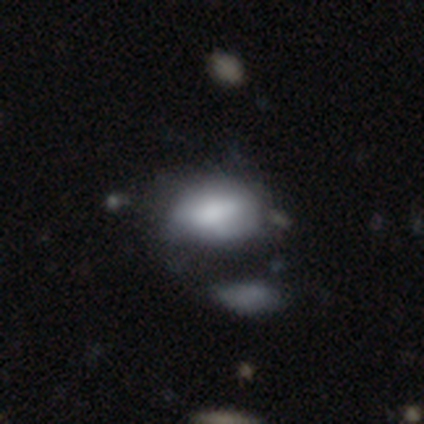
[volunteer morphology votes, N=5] Overall: smooth (80%). How rounded: in between (100%). Merging: major disturbance (40%, tied with merger).